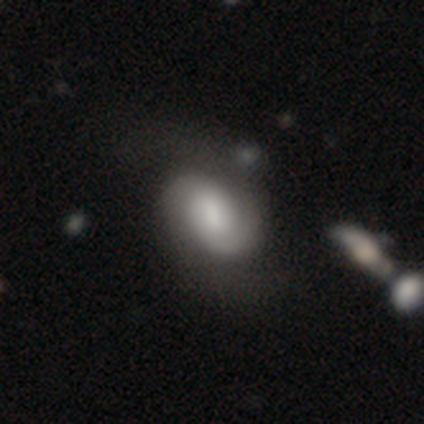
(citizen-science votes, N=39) A featured or disk galaxy (69%) with a weak bar (62%), 2 (88%) loose (38%) spiral arms (100%) and a large central bulge (31%, tied with small).

Vote fractions:
- Smooth or featured? featured or disk: 69% / smooth: 23% / star or artifact: 8%
- Edge-on disk? no: 96% / yes: 4%
- Bar? weak: 62% / no: 27% / strong: 12%
- Spiral arms? yes: 100% / no: 0%
- Spiral winding? loose: 38% / tight: 35% / medium: 27%
- Spiral arm count? 2: 88% / can't tell: 8% / 1: 4% / 3: 0% / 4: 0% / more than 4: 0%
- Bulge size? large: 31% (tied) / small: 31% (tied) / moderate: 19% / none: 19% / dominant: 0%
- Merging? none: 47% / major disturbance: 14% / minor disturbance: 8% / merger: 6%